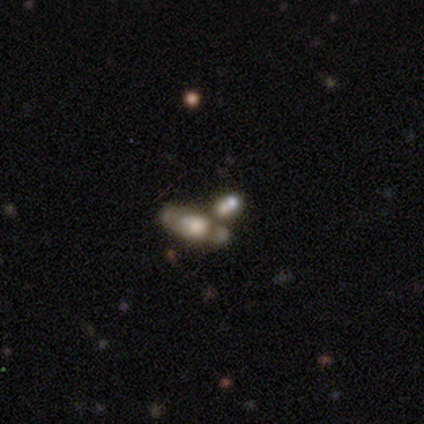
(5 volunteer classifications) A smooth galaxy with no disk features (60%) that is in between round and cigar-shaped (100%).

Vote fractions:
- Smooth or featured? smooth: 60% / featured or disk: 40% / star or artifact: 0%
- How rounded? in between: 100% / round: 0% / cigar-shaped: 0%
- Merging? none: 60% / major disturbance: 20% / merger: 20% / minor disturbance: 0%